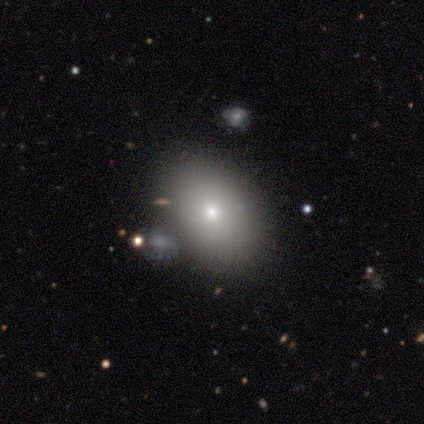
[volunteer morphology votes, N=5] smooth 80%, featured or disk 20%, star or artifact 0%. Down the decision tree: how rounded — round (50%, tied with in between); merging — none (60%).